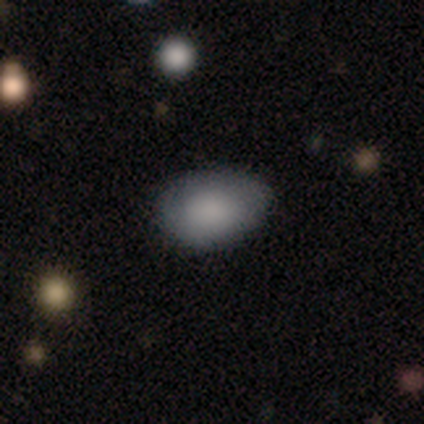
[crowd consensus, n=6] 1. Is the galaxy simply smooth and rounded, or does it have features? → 67% smooth, 33% star or artifact, 0% featured or disk.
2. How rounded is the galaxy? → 75% in between, 25% round, 0% cigar-shaped.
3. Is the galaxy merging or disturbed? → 75% none, 25% minor disturbance, 0% major disturbance, 0% merger.